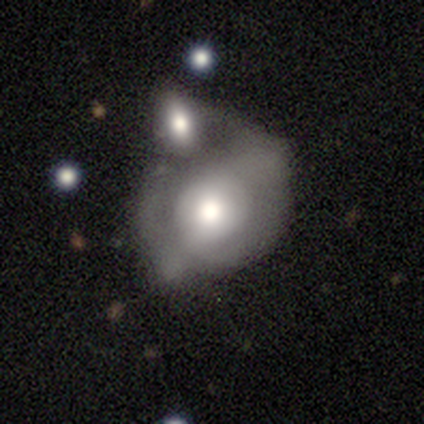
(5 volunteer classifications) Q: Smooth or featured?
A: smooth (100%)
Q: How rounded?
A: round (60%); runner-up: in between (40%)
Q: Merging?
A: merger (100%)